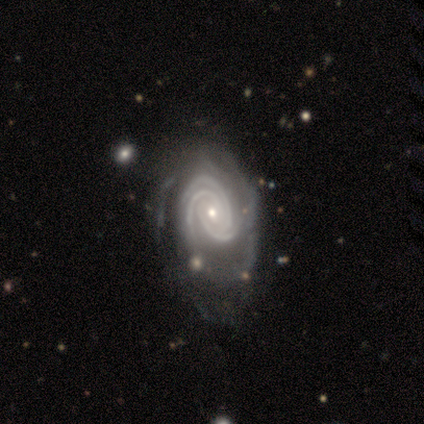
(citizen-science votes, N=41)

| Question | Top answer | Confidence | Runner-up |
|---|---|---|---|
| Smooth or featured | featured or disk | 98% | smooth (2%) |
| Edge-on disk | no | 100% | — |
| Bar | no | 78% | weak (18%) |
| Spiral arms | yes | 100% | — |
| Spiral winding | tight | 95% | medium (5%) |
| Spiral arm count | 3 | 70% | can't tell (18%) |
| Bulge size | small | 72% | moderate (22%) |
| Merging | none | 24% | minor disturbance (22%) |